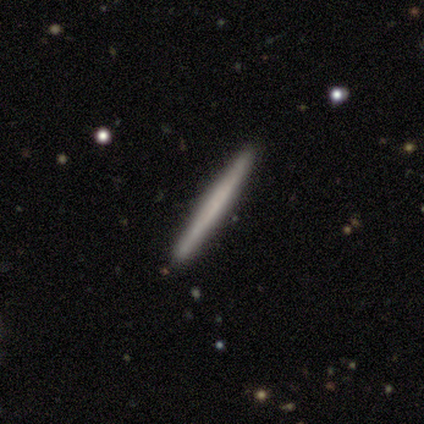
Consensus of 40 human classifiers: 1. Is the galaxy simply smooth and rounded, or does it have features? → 55% smooth, 40% featured or disk, 5% star or artifact.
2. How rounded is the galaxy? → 100% cigar-shaped, 0% round, 0% in between.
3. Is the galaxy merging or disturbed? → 84% none, 13% minor disturbance, 3% merger, 0% major disturbance.